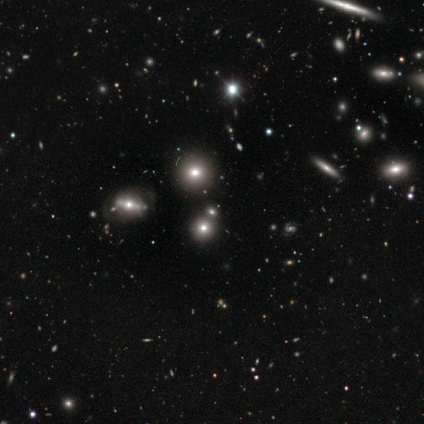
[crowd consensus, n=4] This appears to be a smooth galaxy with no disk features (50%) that is round (100%). Merging: none (67%).